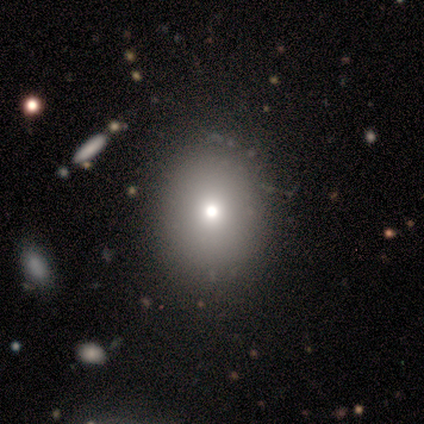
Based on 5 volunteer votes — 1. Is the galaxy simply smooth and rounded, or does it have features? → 80% smooth, 20% featured or disk, 0% star or artifact.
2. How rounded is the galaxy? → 50% round (tied), 50% in between (tied), 0% cigar-shaped.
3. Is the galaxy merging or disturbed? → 100% none, 0% minor disturbance, 0% major disturbance, 0% merger.